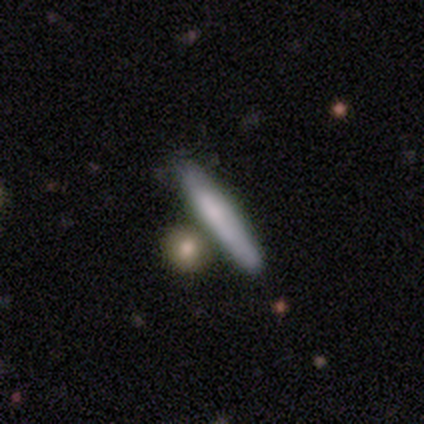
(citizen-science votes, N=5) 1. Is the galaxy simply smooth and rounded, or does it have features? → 100% smooth, 0% featured or disk, 0% star or artifact.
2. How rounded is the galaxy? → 80% cigar-shaped, 20% in between, 0% round.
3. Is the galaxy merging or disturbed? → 60% none, 20% minor disturbance, 20% merger, 0% major disturbance.